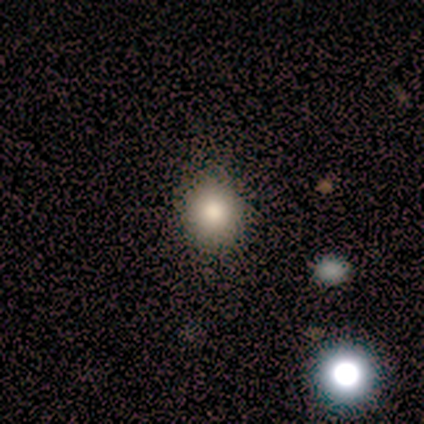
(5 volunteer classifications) This is clearly a smooth galaxy (80%). How rounded: clearly round (100%). Merging: clearly none (100%).